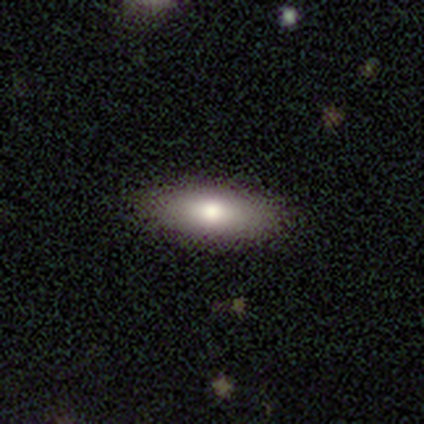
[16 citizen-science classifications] smooth_or_featured: smooth (p=0.81) [alt: featured or disk p=0.19]
how_rounded: in between (p=0.69) [alt: cigar-shaped p=0.23]
merging: none (p=1.00)